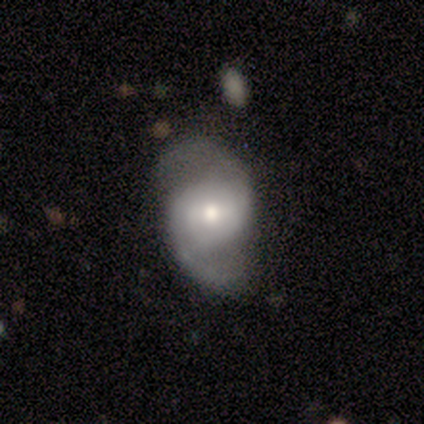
A featured or disk galaxy (100%) with no bar (60%), 2 (80%) medium (40%, tied with loose) spiral arms (100%) and a moderate central bulge (80%).

Vote fractions:
- Smooth or featured? featured or disk: 100% / smooth: 0% / star or artifact: 0%
- Edge-on disk? no: 100% / yes: 0%
- Bar? no: 60% / strong: 20% / weak: 20%
- Spiral arms? yes: 100% / no: 0%
- Spiral winding? medium: 40% (tied) / loose: 40% (tied) / tight: 20%
- Spiral arm count? 2: 80% / can't tell: 20% / 1: 0% / 3: 0% / 4: 0% / more than 4: 0%
- Bulge size? moderate: 80% / small: 20% / dominant: 0% / large: 0% / none: 0%
- Merging? none: 60% / minor disturbance: 40% / major disturbance: 0% / merger: 0%